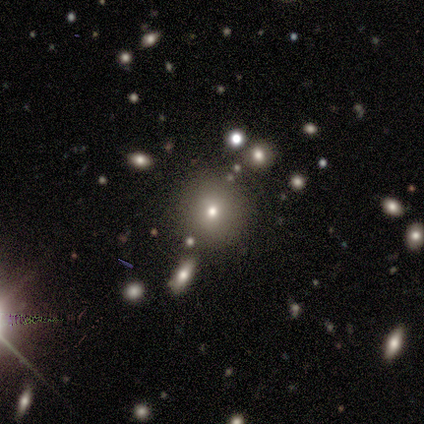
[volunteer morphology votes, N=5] Volunteers were most divided on "smooth or featured" (2-way tie): smooth: 40%, star or artifact: 40%, featured or disk: 20%. More confident: how rounded — round (100%); merging — none (100%).